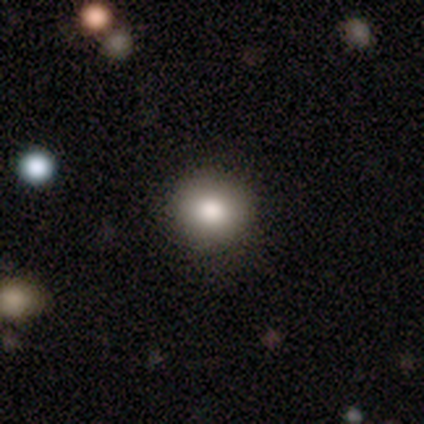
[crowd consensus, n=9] This appears to be a smooth galaxy with no disk features (100%) that is round (78%). Merging: none (89%).